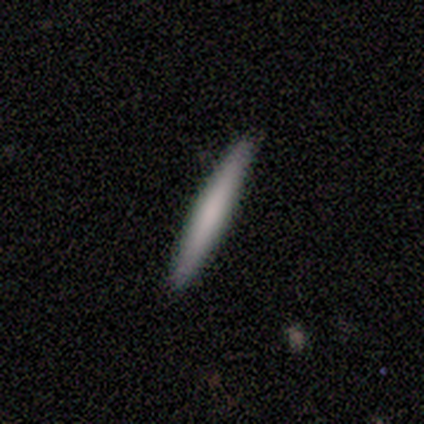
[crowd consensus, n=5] This is clearly a smooth galaxy (80%). How rounded: clearly cigar-shaped (100%). Merging: clearly none (100%).